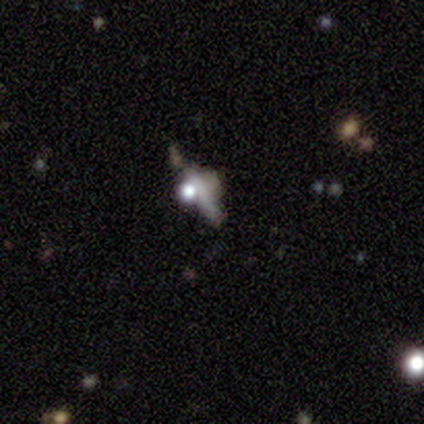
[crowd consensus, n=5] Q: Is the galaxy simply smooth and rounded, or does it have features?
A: featured or disk — 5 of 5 (100%).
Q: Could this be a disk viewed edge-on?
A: yes — 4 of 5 (80%).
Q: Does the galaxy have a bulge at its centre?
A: rounded — 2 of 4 (50%).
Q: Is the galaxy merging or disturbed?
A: none — 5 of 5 (100%).